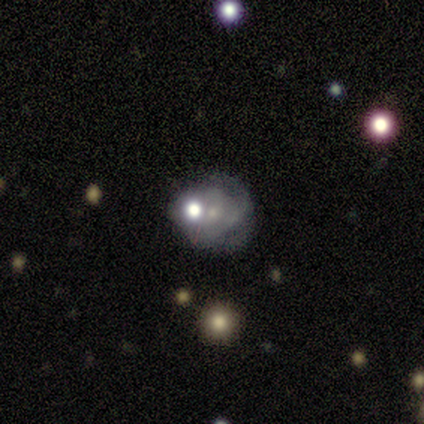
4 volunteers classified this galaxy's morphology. A smooth galaxy with no disk features (50%, tied with featured or disk) that is round (100%).

Vote fractions:
- Smooth or featured? smooth: 50% (tied) / featured or disk: 50% (tied) / star or artifact: 0%
- How rounded? round: 100% / in between: 0% / cigar-shaped: 0%
- Merging? major disturbance: 50% / none: 25% / minor disturbance: 25% / merger: 0%